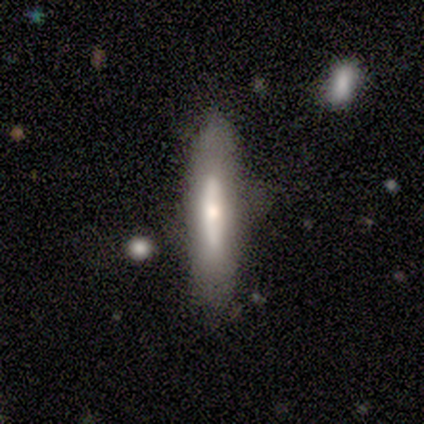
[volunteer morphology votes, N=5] Q: Smooth or featured?
A: featured or disk (60%); runner-up: smooth (40%)
Q: Edge-on disk?
A: yes (100%)
Q: Edge-on bulge?
A: none (67%); runner-up: rounded (33%)
Q: Merging?
A: none (60%); runner-up: minor disturbance (40%)